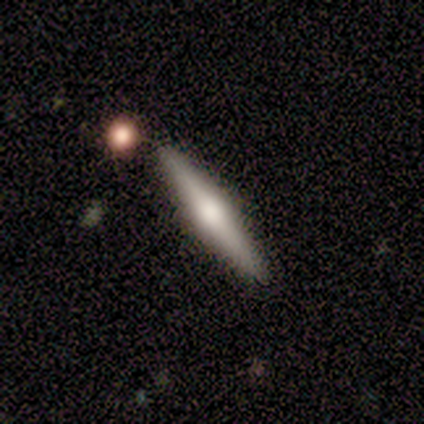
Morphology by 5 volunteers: Volunteers were most divided on "smooth or featured": smooth: 60%, featured or disk: 40%, star or artifact: 0%. More confident: how rounded — cigar-shaped (100%); merging — none (100%).